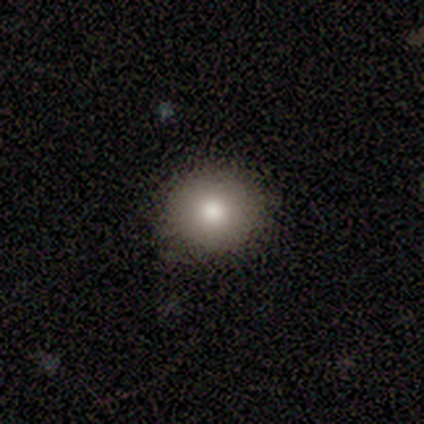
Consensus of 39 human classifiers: Q: Smooth or featured?
A: smooth (77%); runner-up: star or artifact (13%)
Q: How rounded?
A: round (87%); runner-up: in between (13%)
Q: Merging?
A: none (88%); runner-up: minor disturbance (6%)